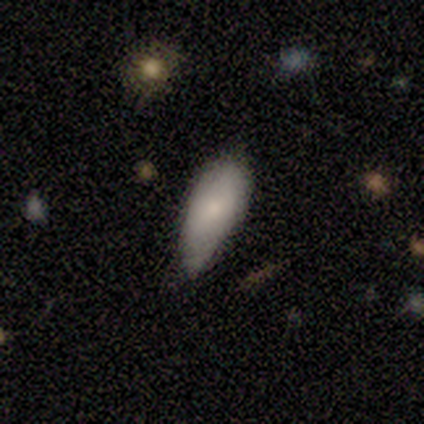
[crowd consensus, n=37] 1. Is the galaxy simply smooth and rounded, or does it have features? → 76% smooth, 16% featured or disk, 8% star or artifact.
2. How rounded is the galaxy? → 86% in between, 14% cigar-shaped, 0% round.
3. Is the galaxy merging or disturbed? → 59% none, 32% minor disturbance, 9% major disturbance, 0% merger.